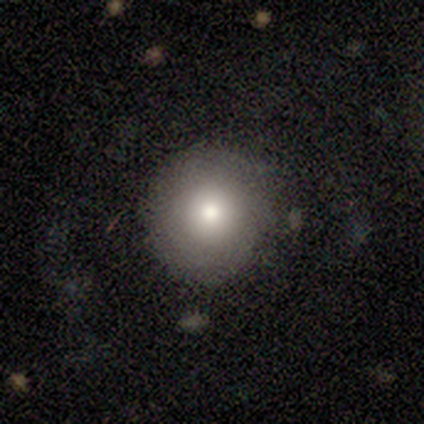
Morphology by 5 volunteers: Consensus on every question: smooth or featured — smooth (100%); how rounded — round (100%); merging — none (100%).